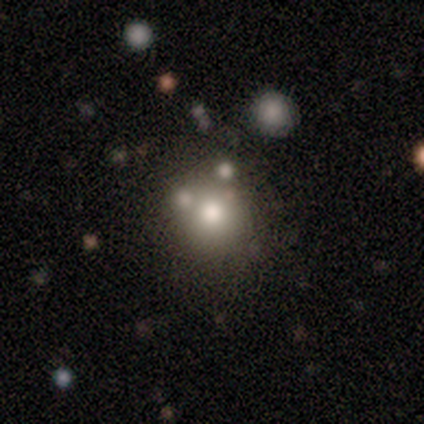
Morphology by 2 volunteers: Volunteers were most divided on "merging" (2-way tie): none: 50%, minor disturbance: 50%, major disturbance: 0%, merger: 0%. More confident: smooth or featured — smooth (100%); how rounded — round (100%).